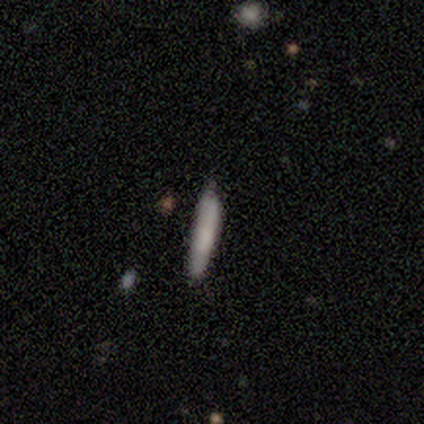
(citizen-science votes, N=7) Q: Smooth or featured?
A: smooth (100%)
Q: How rounded?
A: cigar-shaped (100%)
Q: Merging?
A: none (86%); runner-up: minor disturbance (14%)